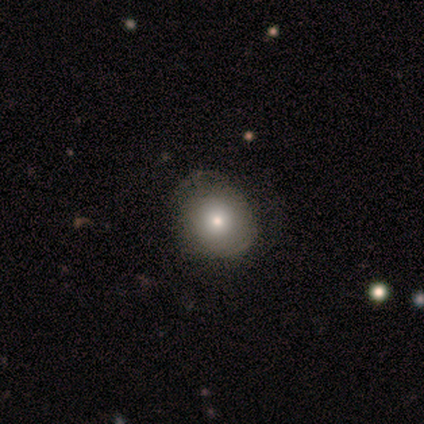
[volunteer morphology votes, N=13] Smooth or featured?
  - smooth: 54% *
  - featured or disk: 38%
  - star or artifact: 8%
How rounded?
  - round: 100% *
  - in between: 0%
  - cigar-shaped: 0%
Merging?
  - none: 75% *
  - minor disturbance: 17%
  - merger: 8%
  - major disturbance: 0%